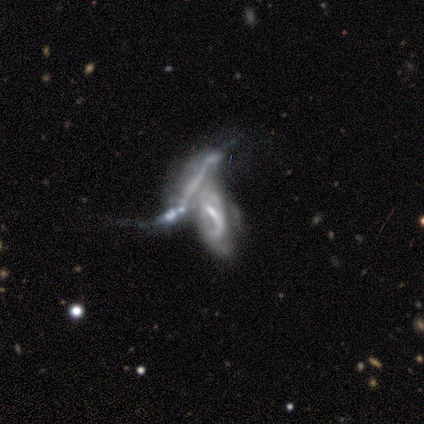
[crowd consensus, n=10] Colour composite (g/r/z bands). It shows a featured or disk galaxy (80%) with no bar (62%), no spiral arms (62%) and no central bulge (62%). Merging: merger (80%).